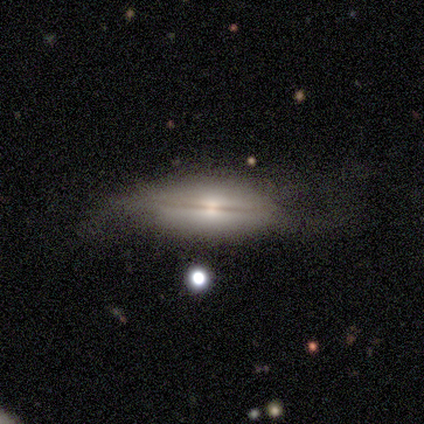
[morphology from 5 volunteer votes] Volunteers were most divided on "edge-on disk" (2-way tie): yes: 50%, no: 50%; "merging" (2-way tie): none: 40%, major disturbance: 40%, minor disturbance: 20%, merger: 0%. More confident: edge-on bulge — rounded (100%); smooth or featured — featured or disk (80%).